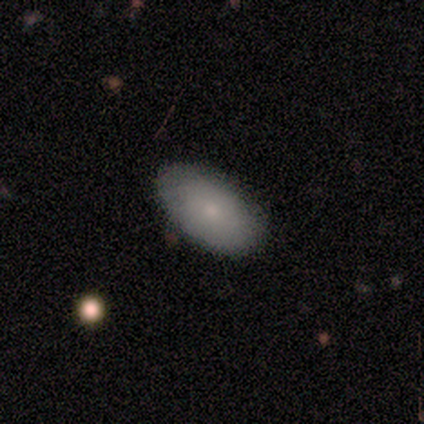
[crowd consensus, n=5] Volunteers were most divided on "smooth or featured": smooth: 80%, featured or disk: 20%, star or artifact: 0%. More confident: how rounded — in between (100%); merging — none (100%).